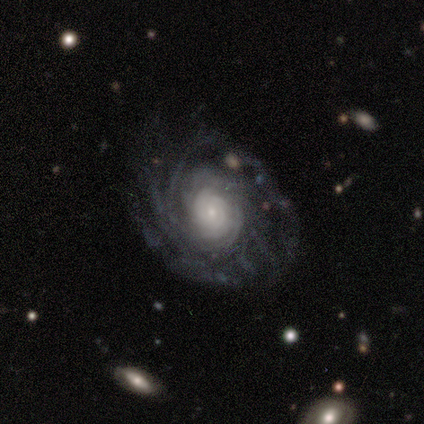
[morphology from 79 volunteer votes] smooth-or-featured: featured or disk: 95% | star or artifact: 4% | smooth: 1%
  disk-edge-on: no: 96% | yes: 4%
    bar: no: 92% | weak: 7% | strong: 1%
    has-spiral-arms: yes: 97% | no: 3%
      spiral-winding: tight: 67% | medium: 20% | loose: 13%
      spiral-arm-count: can't tell: 44% | more than 4: 33% | 4: 10% | 3: 9% | 2: 4% | 1: 0%
    bulge-size: small: 62% | moderate: 28% | large: 7% | dominant: 1% | none: 1%
  merging: none: 39% | minor disturbance: 7% | major disturbance: 5% | merger: 1%